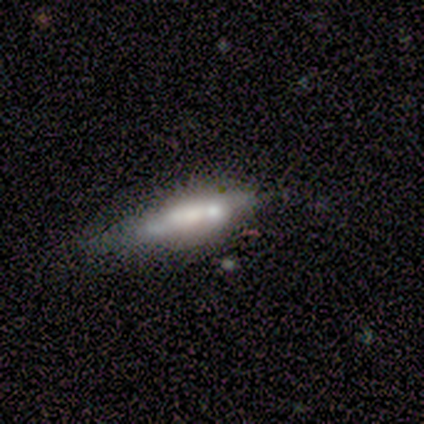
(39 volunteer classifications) smooth_or_featured: smooth (p=0.56) [alt: featured or disk p=0.36]
how_rounded: cigar-shaped (p=0.64) [alt: in between p=0.32]
merging: none (p=0.42) [alt: minor disturbance p=0.31]